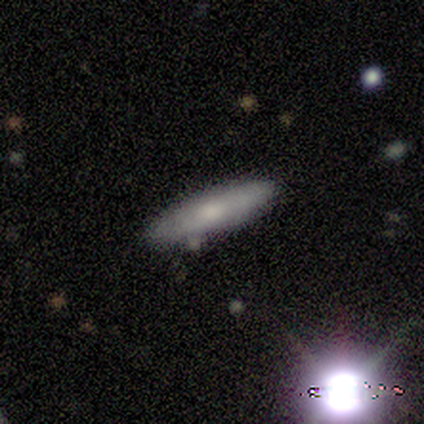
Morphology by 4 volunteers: This appears to be a smooth galaxy with no disk features (50%, tied with featured or disk) that is cigar-shaped (100%). Merging: none (100%).